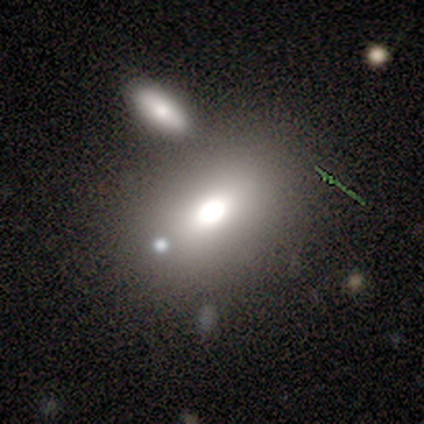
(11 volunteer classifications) A smooth galaxy with no disk features (82%) that is in between round and cigar-shaped (89%).

Vote fractions:
- Smooth or featured? smooth: 82% / star or artifact: 18% / featured or disk: 0%
- How rounded? in between: 89% / round: 11% / cigar-shaped: 0%
- Merging? none: 78% / minor disturbance: 11% / merger: 11% / major disturbance: 0%